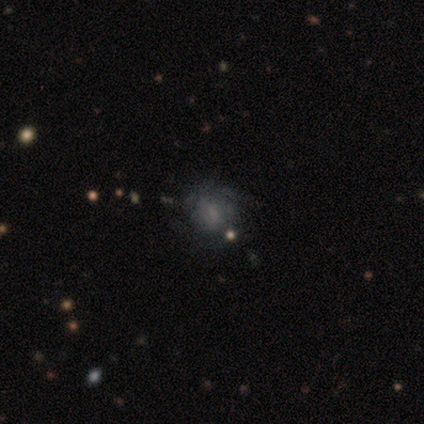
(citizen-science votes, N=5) featured or disk 80%, smooth 20%, star or artifact 0%. Down the decision tree: edge-on disk — no (100%); bar — weak (75%); spiral arms — yes (100%); spiral arm count — 2 (50%); spiral winding — tight (75%); bulge size — moderate (50%); merging — none (60%).